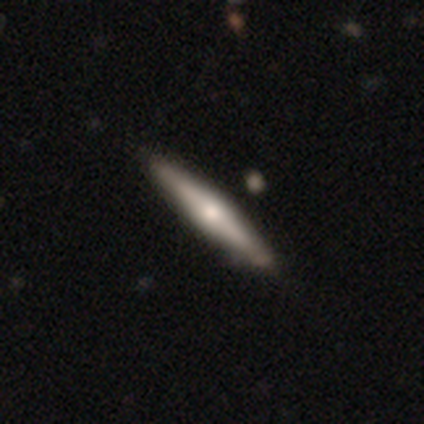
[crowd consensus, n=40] Smooth or featured?
  - featured or disk: 60% *
  - smooth: 38%
  - star or artifact: 2%
Edge-on disk?
  - yes: 100% *
  - no: 0%
Edge-on bulge?
  - rounded: 83% *
  - boxy: 17%
  - none: 0%
Merging?
  - none: 56% *
  - merger: 5%
  - minor disturbance: 3%
  - major disturbance: 3%